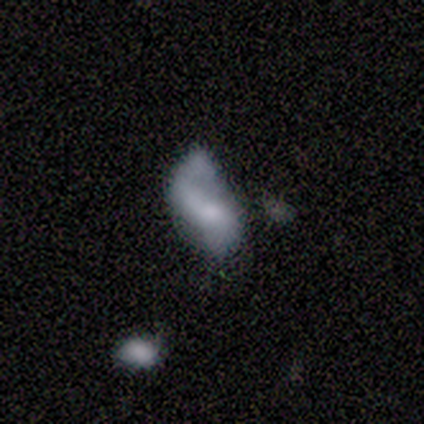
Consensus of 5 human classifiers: Smooth or featured: featured or disk — 60% (smooth — 20%)
Edge-on disk: no — 100%
Bar: no — 67% (strong — 33%)
Spiral arms: no — 67% (yes — 33%)
Bulge size: large — 33% (tied with small — 33%; none — 33%)
Merging: none — 50% (major disturbance — 25%)